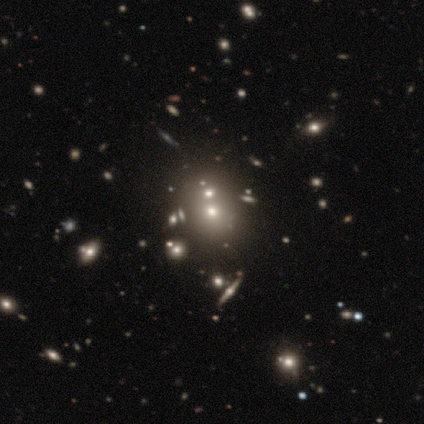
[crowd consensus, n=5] Smooth or featured?
  - smooth: 80% *
  - star or artifact: 20%
  - featured or disk: 0%
How rounded?
  - round: 75% *
  - in between: 25%
  - cigar-shaped: 0%
Merging?
  - none: 50% * (tied)
  - merger: 50% * (tied)
  - minor disturbance: 0%
  - major disturbance: 0%